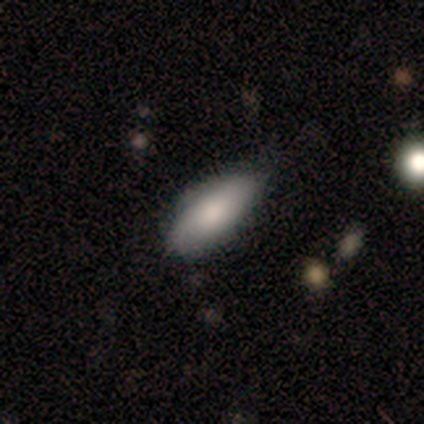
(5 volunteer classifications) This is clearly a smooth galaxy (80%). How rounded: clearly in between (100%). Merging: likely none (60%).